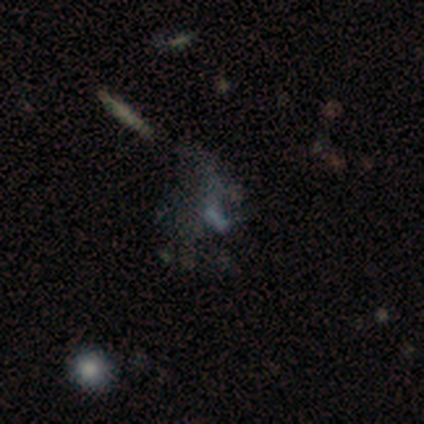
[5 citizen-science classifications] Overall: star or artifact (60%; featured or disk 40%).